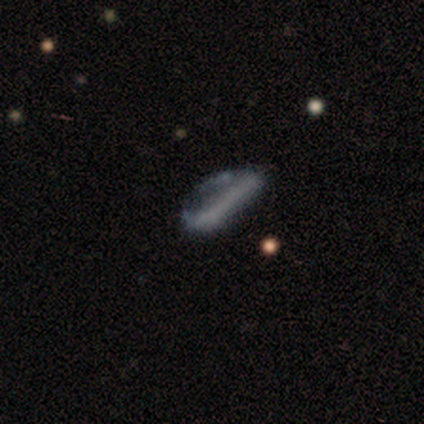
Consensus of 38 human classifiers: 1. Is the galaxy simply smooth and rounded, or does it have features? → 53% smooth, 39% featured or disk, 8% star or artifact.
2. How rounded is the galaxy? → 50% in between (tied), 50% cigar-shaped (tied), 0% round.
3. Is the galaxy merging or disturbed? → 34% minor disturbance (tied), 34% major disturbance (tied), 26% none, 6% merger.